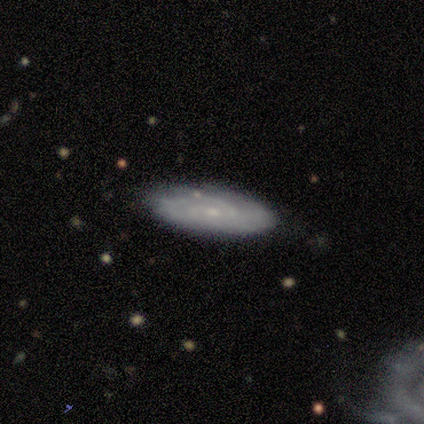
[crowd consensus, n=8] Smooth or featured: featured or disk — 62% (smooth — 25%)
Edge-on disk: no — 80% (yes — 20%)
Bar: no — 75% (weak — 25%)
Spiral arms: yes — 100%
Spiral winding: tight — 100%
Spiral arm count: 2 — 50% (1 — 25%)
Bulge size: small — 100%
Merging: none — 100%